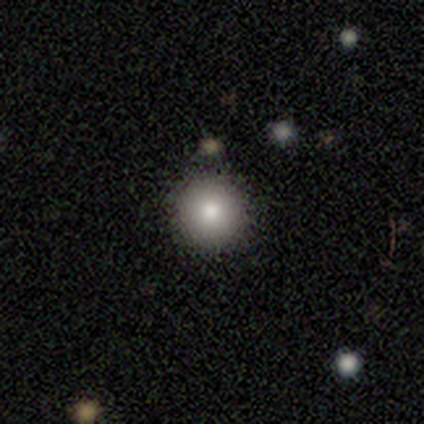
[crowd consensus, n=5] Morphology: type=smooth (60%); roundness=round (100%); merging=none (100%).